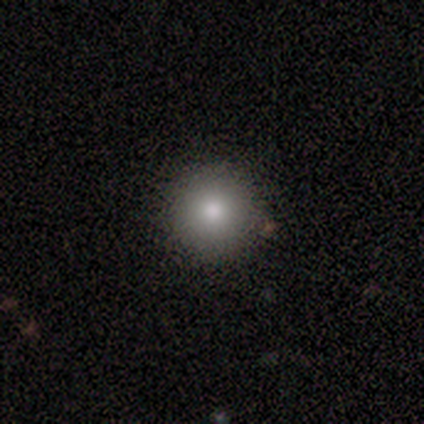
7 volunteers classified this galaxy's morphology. Smooth or featured? smooth (57%)
How rounded? round (100%)
Merging? none (60%)